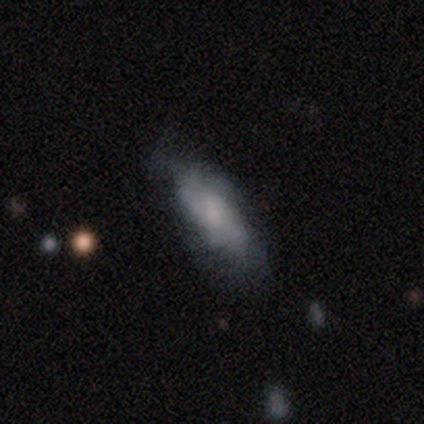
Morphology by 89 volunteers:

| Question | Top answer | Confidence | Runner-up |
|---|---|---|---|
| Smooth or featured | smooth | 53% | featured or disk (38%) |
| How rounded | in between | 72% | cigar-shaped (26%) |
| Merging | none | 56% | minor disturbance (31%) |